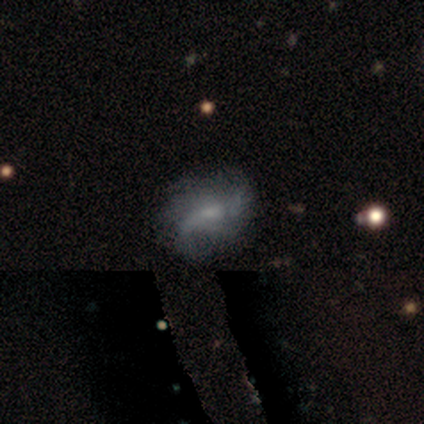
smooth_or_featured: featured or disk (p=0.72) [alt: smooth p=0.19]
disk_edge_on: no (p=1.00)
bar: no (p=0.54) [alt: weak p=0.38]
has_spiral_arms: yes (p=0.92) [alt: no p=0.08]
spiral_winding: loose (p=0.54) [alt: tight p=0.29]
spiral_arm_count: can't tell (p=0.33) [alt: 1 p=0.25]
bulge_size: small (p=0.50) [alt: moderate p=0.27]
merging: none (p=0.67) [alt: minor disturbance p=0.24]